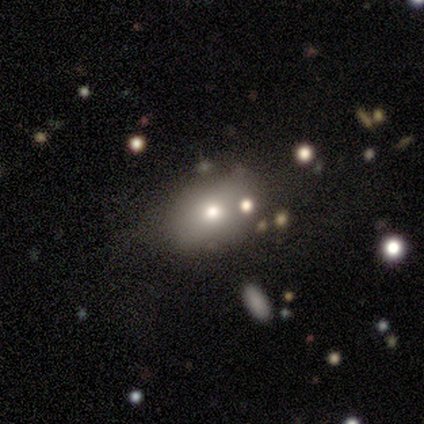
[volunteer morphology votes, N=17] smooth 71%, featured or disk 24%, star or artifact 6%. Down the decision tree: how rounded — in between (75%); merging — none (75%).